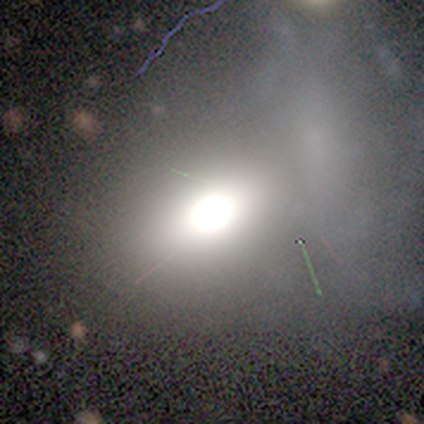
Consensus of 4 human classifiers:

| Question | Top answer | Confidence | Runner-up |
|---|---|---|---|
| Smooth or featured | star or artifact | 50% | smooth (25%) |